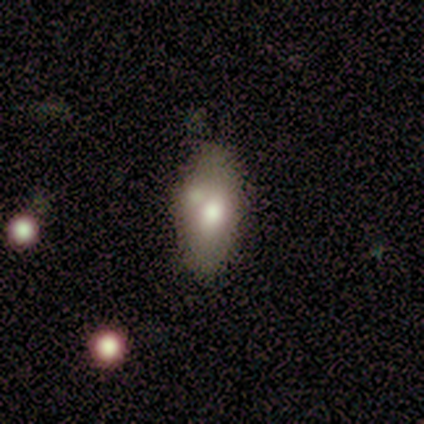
Q: Smooth or featured?
A: smooth (80%); runner-up: featured or disk (20%)
Q: How rounded?
A: in between (75%); runner-up: cigar-shaped (25%)
Q: Merging?
A: none (40%); tied with: merger (40%)